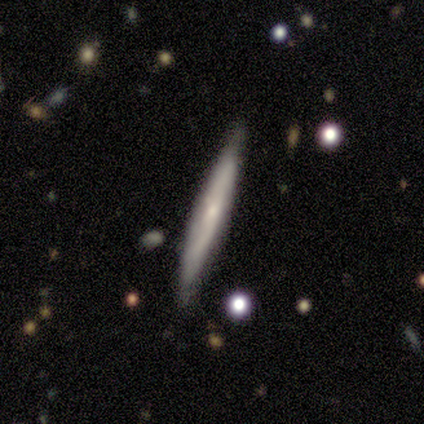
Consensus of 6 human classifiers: smooth_or_featured: featured or disk (p=0.67) [alt: smooth p=0.17]
disk_edge_on: yes (p=0.50) [tied with: no p=0.50]
edge_on_bulge: none (p=1.00)
merging: none (p=0.80) [alt: minor disturbance p=0.20]